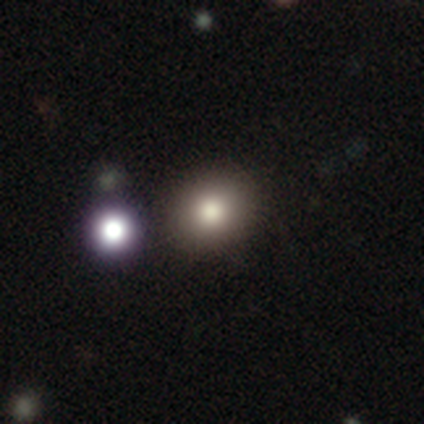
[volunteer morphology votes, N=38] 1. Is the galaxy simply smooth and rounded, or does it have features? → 68% smooth, 16% featured or disk, 16% star or artifact.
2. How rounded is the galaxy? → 65% round, 35% in between, 0% cigar-shaped.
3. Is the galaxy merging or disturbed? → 97% none, 3% merger, 0% minor disturbance, 0% major disturbance.